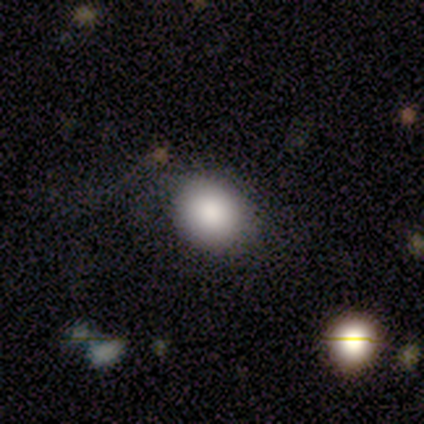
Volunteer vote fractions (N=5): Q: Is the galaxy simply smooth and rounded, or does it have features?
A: smooth — 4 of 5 (80%).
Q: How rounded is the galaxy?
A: round — 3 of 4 (75%).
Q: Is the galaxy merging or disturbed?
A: none — 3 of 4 (75%).